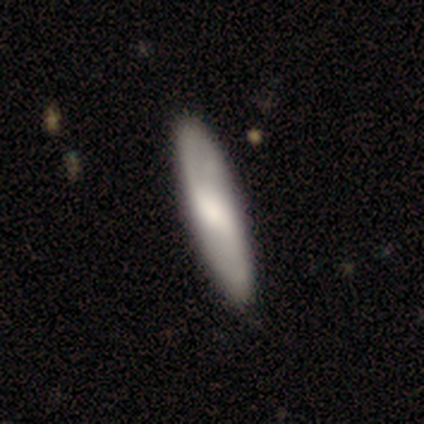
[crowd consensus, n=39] Smooth or featured?
  - smooth: 51% *
  - featured or disk: 49%
  - star or artifact: 0%
How rounded?
  - cigar-shaped: 60% *
  - in between: 40%
  - round: 0%
Merging?
  - none: 64% *
  - minor disturbance: 5%
  - merger: 3%
  - major disturbance: 0%